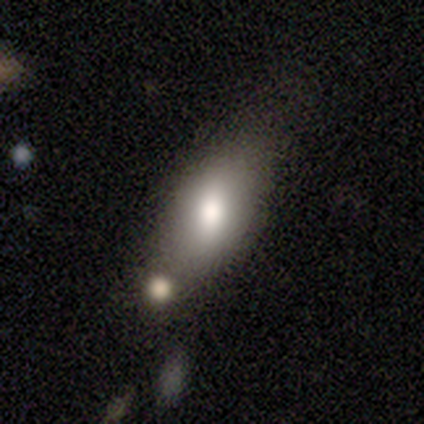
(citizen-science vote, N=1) Smooth or featured: smooth — 100%
How rounded: in between — 100%
Merging: none — 100%